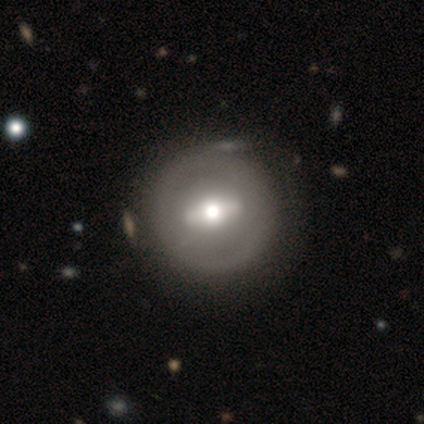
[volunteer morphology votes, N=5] smooth-or-featured: featured or disk: 60% | smooth: 40% | star or artifact: 0%
  disk-edge-on: no: 100% | yes: 0%
    bar: strong: 100% | weak: 0% | no: 0%
    has-spiral-arms: no: 100% | yes: 0%
    bulge-size: moderate: 67% | large: 33% | dominant: 0% | small: 0% | none: 0%
  merging: none: 80% | merger: 20% | minor disturbance: 0% | major disturbance: 0%